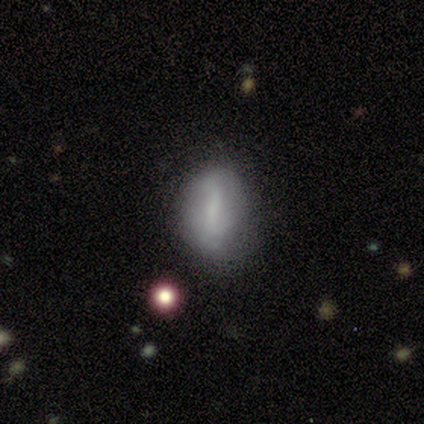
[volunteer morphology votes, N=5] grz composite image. It shows a smooth galaxy with no disk features (40%, tied with featured or disk) that is round (50%, tied with in between). Merging: none (75%).